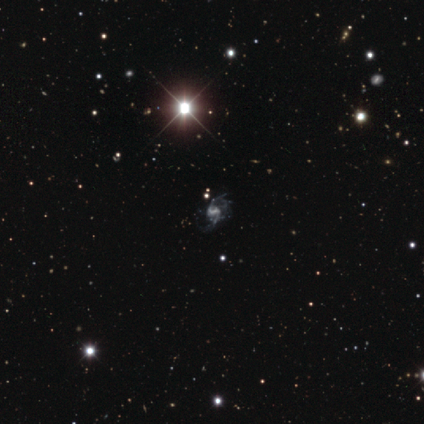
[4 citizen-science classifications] Smooth or featured?
  - featured or disk: 50% *
  - smooth: 25%
  - star or artifact: 25%
Edge-on disk?
  - no: 100% *
  - yes: 0%
Bar?
  - strong: 50% * (tied)
  - no: 50% * (tied)
  - weak: 0%
Spiral arms?
  - yes: 50% * (tied)
  - no: 50% * (tied)
Spiral winding?
  - loose: 100% *
  - tight: 0%
  - medium: 0%
Spiral arm count?
  - 2: 100% *
  - 1: 0%
  - 3: 0%
  - 4: 0%
  - more than 4: 0%
  - can't tell: 0%
Bulge size?
  - large: 50% * (tied)
  - none: 50% * (tied)
  - dominant: 0%
  - moderate: 0%
  - small: 0%
Merging?
  - none: 33% * (tied)
  - minor disturbance: 33% * (tied)
  - major disturbance: 33% * (tied)
  - merger: 0%